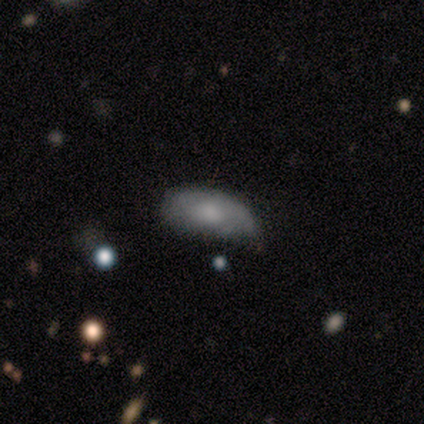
Overall: smooth (62%; featured or disk 38%). How rounded: in between (100%). Merging: none (50%; minor disturbance 38%).